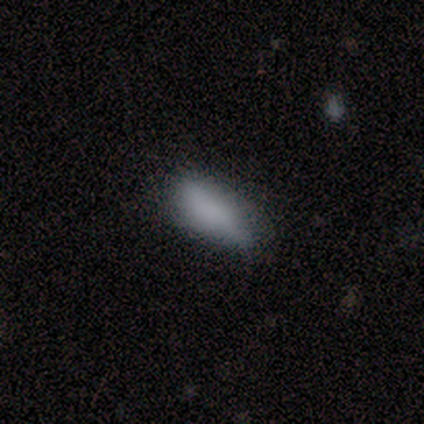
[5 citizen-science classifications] Smooth or featured?
  - smooth: 100% *
  - featured or disk: 0%
  - star or artifact: 0%
How rounded?
  - in between: 60% *
  - cigar-shaped: 40%
  - round: 0%
Merging?
  - none: 60% *
  - minor disturbance: 20%
  - major disturbance: 20%
  - merger: 0%